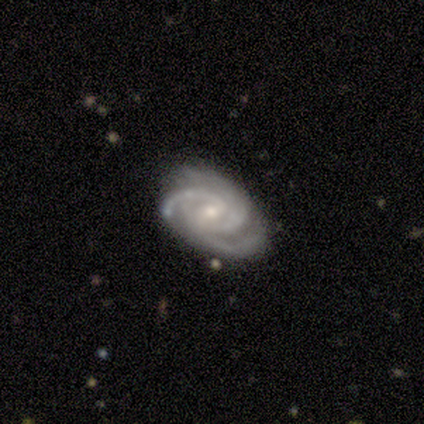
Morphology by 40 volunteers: Smooth or featured? 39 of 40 (98%) said featured or disk. Edge-on disk? 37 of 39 (95%) said no. Bar? 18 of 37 (49%) said weak. Spiral arms? 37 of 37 (100%) said yes. Spiral winding? 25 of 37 (68%) said tight. Spiral arm count? 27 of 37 (73%) said 3. Bulge size? 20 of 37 (54%) said small. Merging? 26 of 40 (65%) said none.